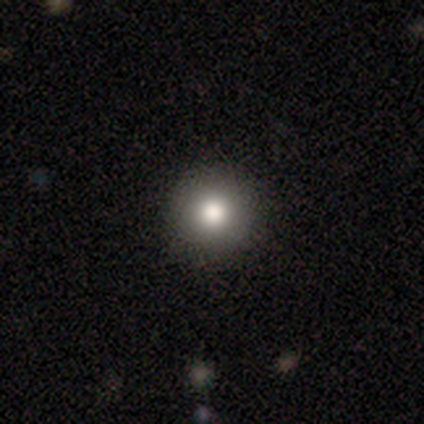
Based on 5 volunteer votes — Smooth or featured?
  - smooth: 100% *
  - featured or disk: 0%
  - star or artifact: 0%
How rounded?
  - round: 100% *
  - in between: 0%
  - cigar-shaped: 0%
Merging?
  - none: 80% *
  - major disturbance: 20%
  - minor disturbance: 0%
  - merger: 0%